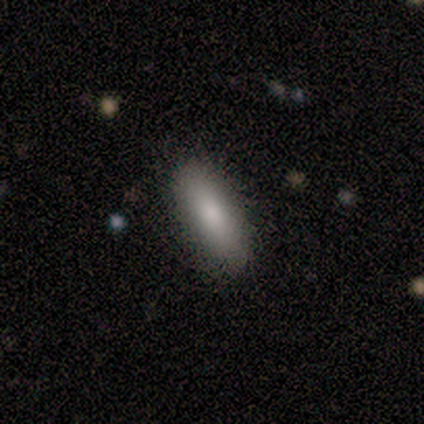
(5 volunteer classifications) Smooth or featured? smooth (80%)
How rounded? in between (100%)
Merging? none (80%)